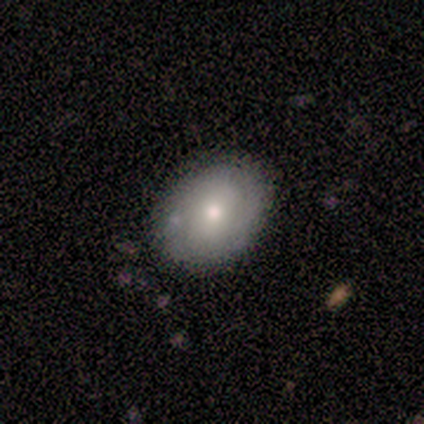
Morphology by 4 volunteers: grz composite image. It shows a smooth galaxy with no disk features (50%, tied with featured or disk) that is round (100%). Merging: none (100%).